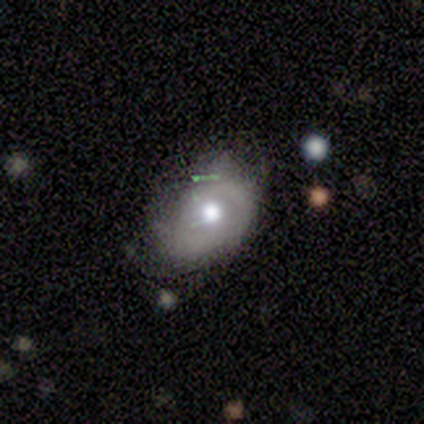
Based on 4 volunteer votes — Volunteers were most divided on "smooth or featured" (2-way tie): smooth: 50%, featured or disk: 50%, star or artifact: 0%; "merging" (2-way tie): none: 50%, minor disturbance: 50%, major disturbance: 0%, merger: 0%. More confident: how rounded — in between (100%).